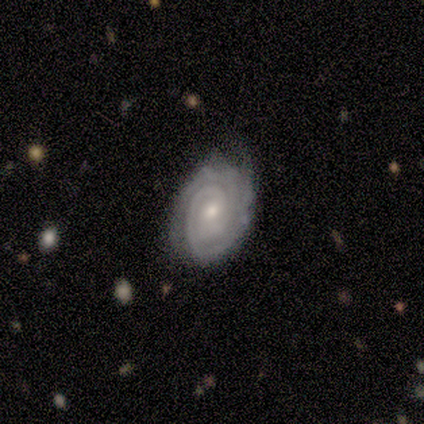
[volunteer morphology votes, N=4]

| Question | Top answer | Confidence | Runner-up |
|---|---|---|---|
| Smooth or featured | featured or disk | 75% | star or artifact (25%) |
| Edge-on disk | no | 100% | — |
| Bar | weak | 67% | no (33%) |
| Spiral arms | yes | 100% | — |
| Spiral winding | tight | 100% | — |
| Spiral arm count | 2 | 33% | tied: 3 (33%), can't tell (33%) |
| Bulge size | moderate | 67% | small (33%) |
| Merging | none | 67% | minor disturbance (33%) |